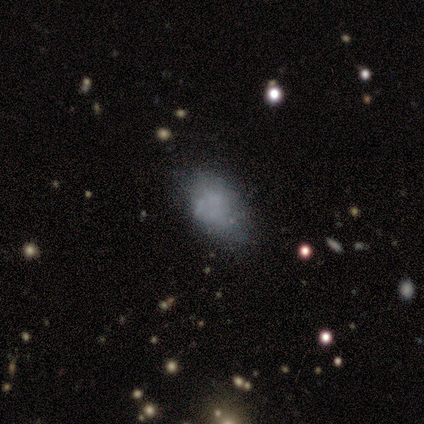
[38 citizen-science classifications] A smooth galaxy with no disk features (61%) that is in between round and cigar-shaped (91%). Merging: none (52%).